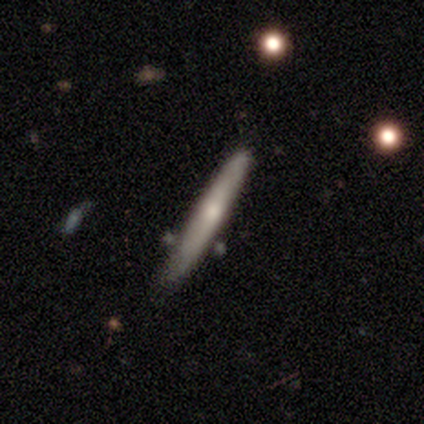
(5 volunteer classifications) A smooth galaxy with no disk features (60%) that is cigar-shaped (100%).

Vote fractions:
- Smooth or featured? smooth: 60% / featured or disk: 40% / star or artifact: 0%
- How rounded? cigar-shaped: 100% / round: 0% / in between: 0%
- Merging? none: 80% / minor disturbance: 20% / major disturbance: 0% / merger: 0%